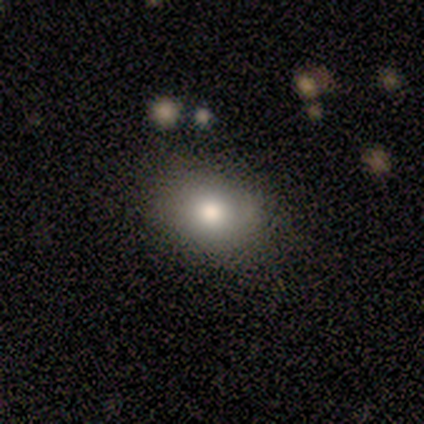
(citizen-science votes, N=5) smooth-or-featured: smooth: 80% | featured or disk: 20% | star or artifact: 0%
  how-rounded: in between: 75% | round: 25% | cigar-shaped: 0%
  merging: none: 100% | minor disturbance: 0% | major disturbance: 0% | merger: 0%